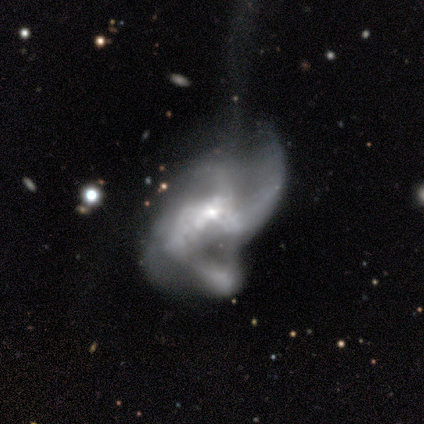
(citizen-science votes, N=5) A featured or disk galaxy (80%) with no bar (100%), 3 (50%) medium (50%, tied with loose) spiral arms (100%) and a moderate central bulge (50%, tied with small).

Vote fractions:
- Smooth or featured? featured or disk: 80% / star or artifact: 20% / smooth: 0%
- Edge-on disk? no: 100% / yes: 0%
- Bar? no: 100% / strong: 0% / weak: 0%
- Spiral arms? yes: 100% / no: 0%
- Spiral winding? medium: 50% (tied) / loose: 50% (tied) / tight: 0%
- Spiral arm count? 3: 50% / 2: 25% / 4: 25% / 1: 0% / more than 4: 0% / can't tell: 0%
- Bulge size? moderate: 50% (tied) / small: 50% (tied) / dominant: 0% / large: 0% / none: 0%
- Merging? major disturbance: 75% / none: 25% / minor disturbance: 0% / merger: 0%